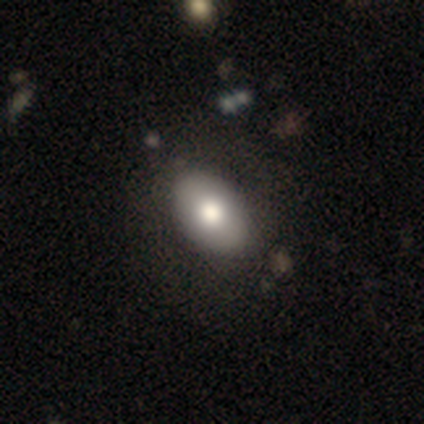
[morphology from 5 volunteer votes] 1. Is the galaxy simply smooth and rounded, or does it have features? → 60% featured or disk, 40% smooth, 0% star or artifact.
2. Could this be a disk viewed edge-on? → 100% no, 0% yes.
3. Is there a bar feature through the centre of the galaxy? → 100% no, 0% strong, 0% weak.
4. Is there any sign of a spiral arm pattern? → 100% no, 0% yes.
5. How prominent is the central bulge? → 33% dominant (tied), 33% large (tied), 33% moderate (tied), 0% small, 0% none.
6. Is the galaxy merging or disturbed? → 80% none, 20% minor disturbance, 0% major disturbance, 0% merger.